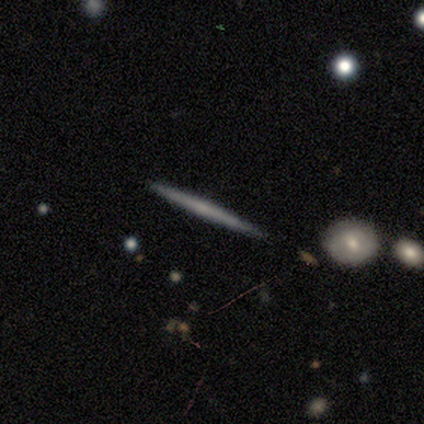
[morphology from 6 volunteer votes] Smooth or featured? 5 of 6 (83%) said featured or disk. Edge-on disk? 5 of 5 (100%) said yes. Edge-on bulge? 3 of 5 (60%) said none. Merging? 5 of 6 (83%) said none.